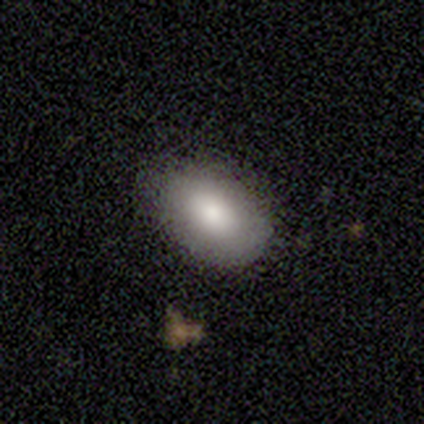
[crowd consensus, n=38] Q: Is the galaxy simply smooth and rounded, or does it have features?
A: smooth — 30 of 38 (79%).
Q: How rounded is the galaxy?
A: in between — 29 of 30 (97%).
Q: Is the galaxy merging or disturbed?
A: none — 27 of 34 (79%).